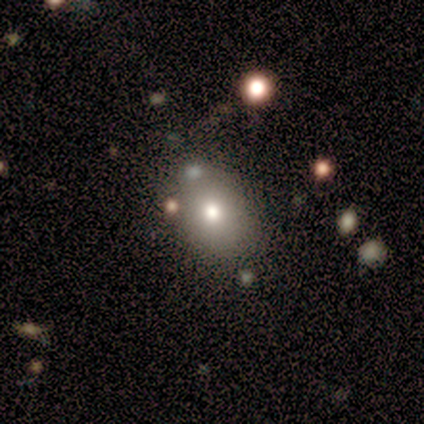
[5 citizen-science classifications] smooth 80%, star or artifact 20%, featured or disk 0%. Down the decision tree: how rounded — in between (75%); merging — none (75%).